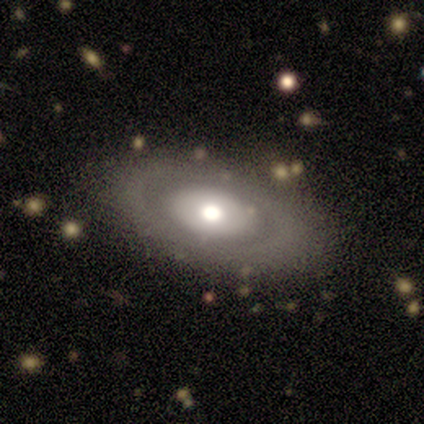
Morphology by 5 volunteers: Volunteers were most divided on "bulge size": large: 60%, moderate: 40%, dominant: 0%, small: 0%, none: 0%. More confident: smooth or featured — featured or disk (100%); edge-on disk — no (100%); bar — no (100%); spiral arms — no (80%); merging — none (80%).